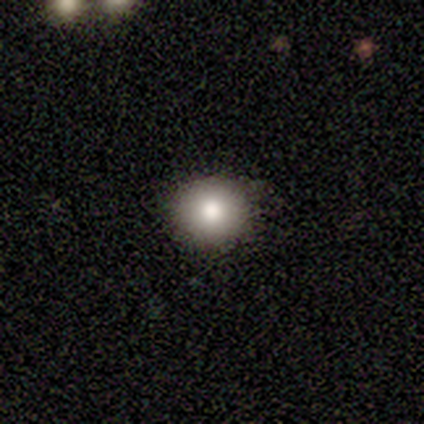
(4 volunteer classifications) Overall: smooth (75%). How rounded: round (100%). Merging: none (100%).